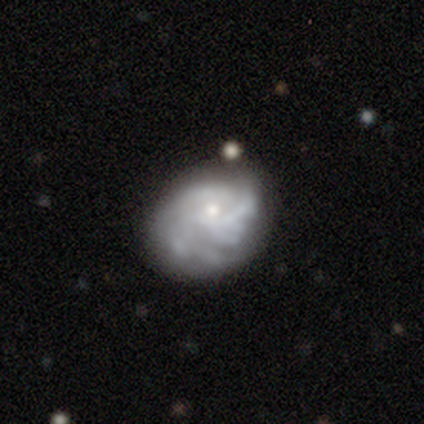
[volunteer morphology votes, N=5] A smooth galaxy with no disk features (60%) that is in between round and cigar-shaped (100%). Merging: none (60%).